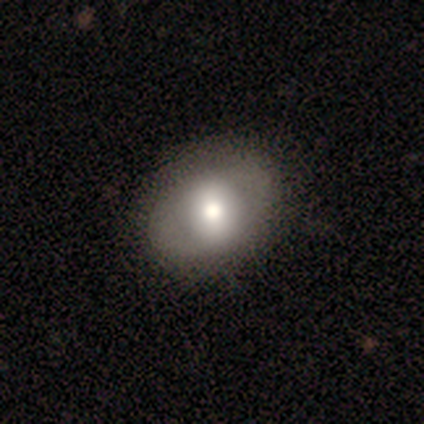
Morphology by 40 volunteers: Smooth or featured? 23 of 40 (57%) said smooth. How rounded? 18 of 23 (78%) said in between. Merging? 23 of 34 (68%) said none.